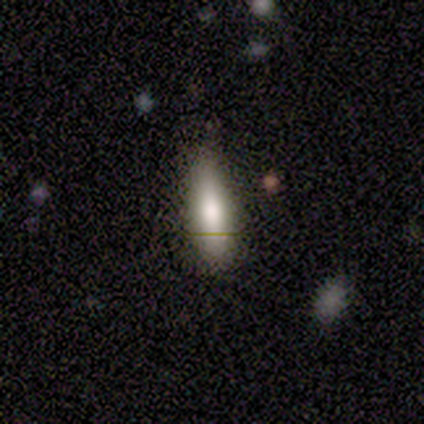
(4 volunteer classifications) Smooth or featured: smooth — 50% (tied with featured or disk — 50%)
How rounded: cigar-shaped — 100%
Merging: none — 75% (major disturbance — 25%)